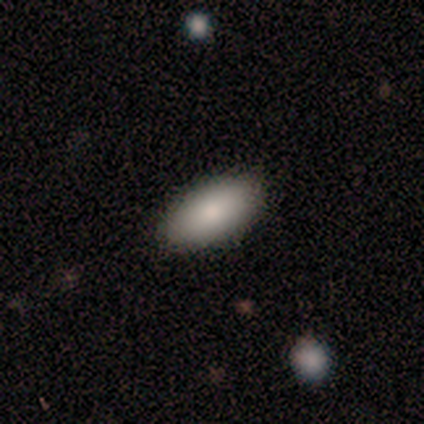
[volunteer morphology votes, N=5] Smooth or featured?
  - smooth: 100% *
  - featured or disk: 0%
  - star or artifact: 0%
How rounded?
  - in between: 100% *
  - round: 0%
  - cigar-shaped: 0%
Merging?
  - none: 80% *
  - minor disturbance: 20%
  - major disturbance: 0%
  - merger: 0%